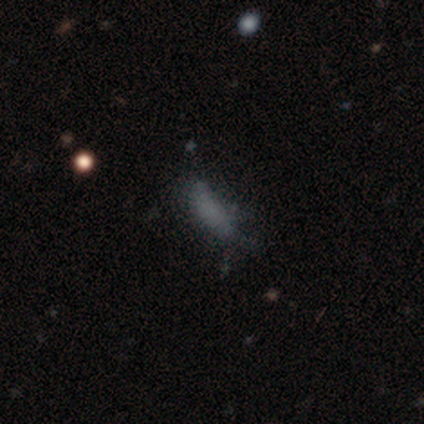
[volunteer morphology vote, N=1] A smooth galaxy with no disk features (100%) that is cigar-shaped (100%). Merging: major disturbance (100%).